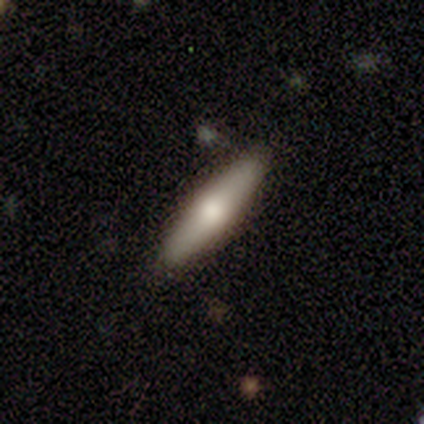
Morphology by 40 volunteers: smooth_or_featured: smooth (p=0.65) [alt: featured or disk p=0.25]
how_rounded: cigar-shaped (p=0.92) [alt: in between p=0.08]
merging: none (p=0.92) [alt: minor disturbance p=0.08]